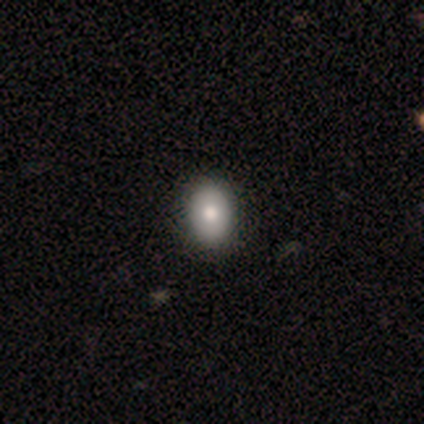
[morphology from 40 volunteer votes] This appears to be a smooth galaxy with no disk features (78%) that is in between round and cigar-shaped (77%). Merging: none (90%).